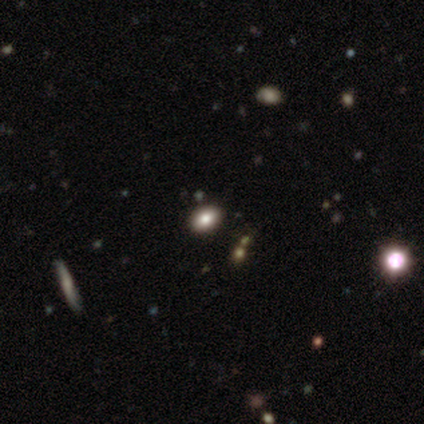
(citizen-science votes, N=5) A smooth galaxy with no disk features (100%) that is in between round and cigar-shaped (80%).

Vote fractions:
- Smooth or featured? smooth: 100% / featured or disk: 0% / star or artifact: 0%
- How rounded? in between: 80% / round: 20% / cigar-shaped: 0%
- Merging? none: 60% / minor disturbance: 40% / major disturbance: 0% / merger: 0%